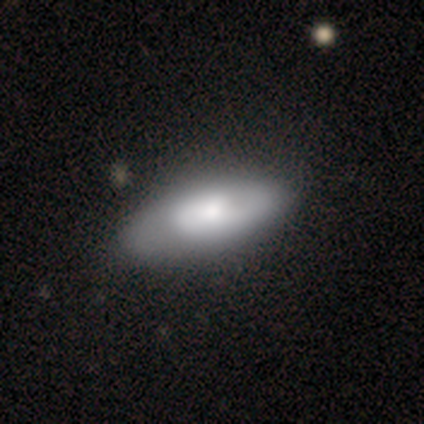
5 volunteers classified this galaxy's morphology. smooth_or_featured: featured or disk (p=0.60) [alt: smooth p=0.40]
disk_edge_on: no (p=1.00)
bar: no (p=1.00)
has_spiral_arms: no (p=0.67) [alt: yes p=0.33]
bulge_size: large (p=0.33) [tied with: moderate p=0.33, none p=0.33]
merging: none (p=0.40) [tied with: minor disturbance p=0.40]